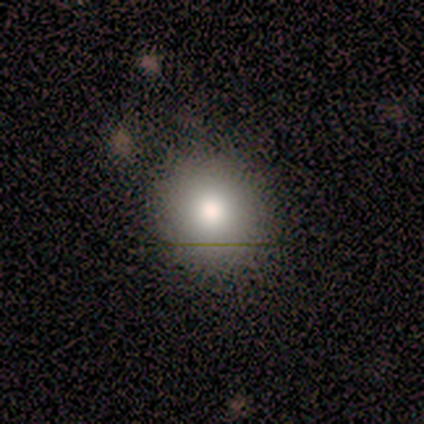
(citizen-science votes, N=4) Q: Smooth or featured?
A: smooth (75%); runner-up: featured or disk (25%)
Q: How rounded?
A: round (100%)
Q: Merging?
A: none (100%)